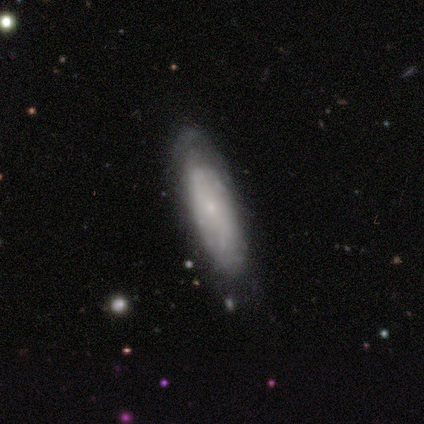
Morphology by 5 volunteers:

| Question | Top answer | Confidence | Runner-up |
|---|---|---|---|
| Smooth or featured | smooth | 60% | featured or disk (40%) |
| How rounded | cigar-shaped | 67% | in between (33%) |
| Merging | none | 80% | minor disturbance (20%) |